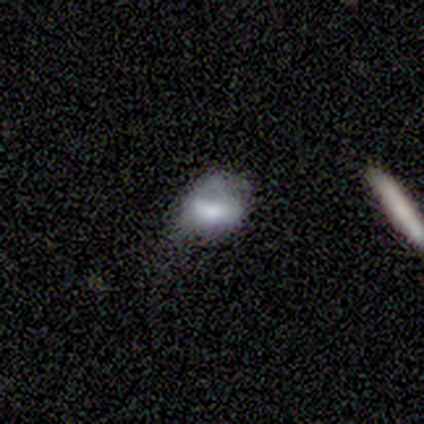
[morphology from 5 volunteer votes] smooth_or_featured: featured or disk (p=0.60) [alt: smooth p=0.40]
disk_edge_on: no (p=1.00)
bar: no (p=0.67) [alt: weak p=0.33]
has_spiral_arms: no (p=1.00)
bulge_size: large (p=0.33) [tied with: small p=0.33, none p=0.33]
merging: none (p=0.80) [alt: minor disturbance p=0.20]